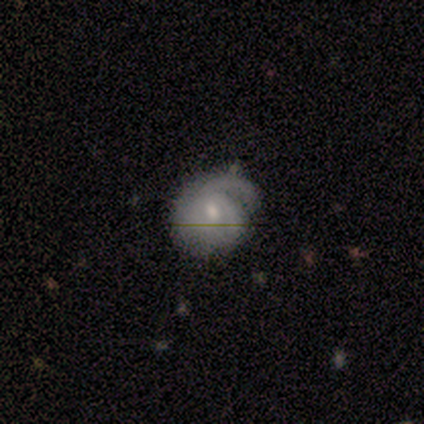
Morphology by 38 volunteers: smooth-or-featured: featured or disk: 79% | smooth: 18% | star or artifact: 3%
  disk-edge-on: no: 100% | yes: 0%
    bar: no: 63% | weak: 33% | strong: 3%
    has-spiral-arms: yes: 90% | no: 10%
      spiral-winding: tight: 48% | medium: 30% | loose: 22%
      spiral-arm-count: 1: 56% | 2: 22% | can't tell: 19% | 3: 4% | 4: 0% | more than 4: 0%
    bulge-size: moderate: 47% (tied) | small: 47% (tied) | dominant: 3% | none: 3% | large: 0%
  merging: none: 65% | minor disturbance: 24% | major disturbance: 8% | merger: 3%